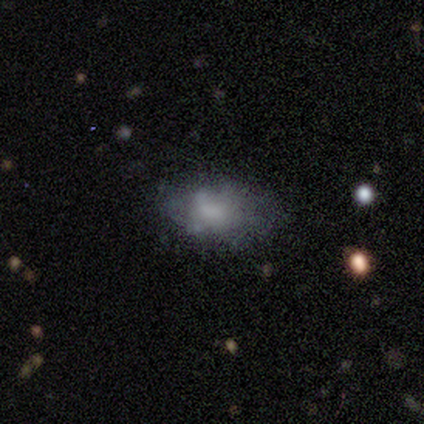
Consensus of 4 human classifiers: Volunteers were most divided on "smooth or featured": featured or disk: 50%, smooth: 25%, star or artifact: 25%. More confident: edge-on disk — no (100%); bar — no (100%); spiral arms — no (100%); bulge size — small (100%); merging — none (100%).